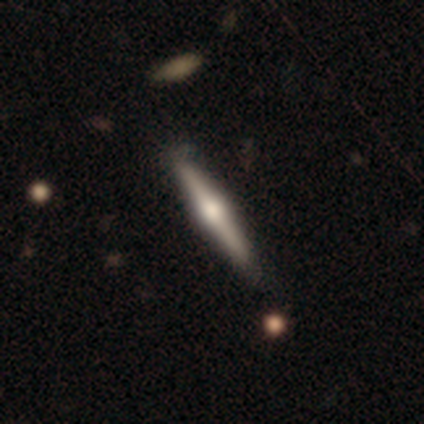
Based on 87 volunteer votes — Volunteers were most divided on "smooth or featured": featured or disk: 71%, smooth: 26%, star or artifact: 2%. More confident: edge-on disk — yes (100%); edge-on bulge — rounded (92%); merging — none (86%).